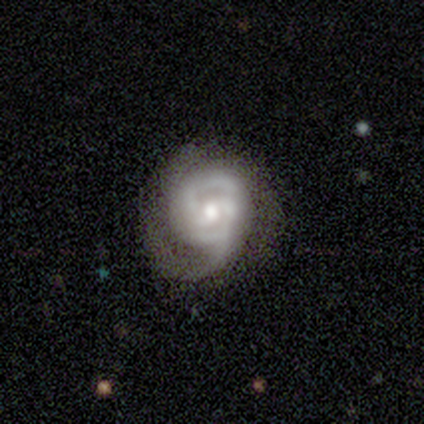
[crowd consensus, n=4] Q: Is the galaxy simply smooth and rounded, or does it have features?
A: featured or disk — 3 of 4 (75%).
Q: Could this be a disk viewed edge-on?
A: no — 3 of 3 (100%).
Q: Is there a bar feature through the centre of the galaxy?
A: no — 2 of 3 (67%).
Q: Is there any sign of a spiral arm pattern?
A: yes — 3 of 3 (100%).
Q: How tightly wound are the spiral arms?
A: loose — 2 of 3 (67%).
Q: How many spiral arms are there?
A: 2 — 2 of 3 (67%).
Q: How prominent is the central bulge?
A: moderate — 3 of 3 (100%).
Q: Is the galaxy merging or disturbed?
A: none — 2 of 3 (67%).